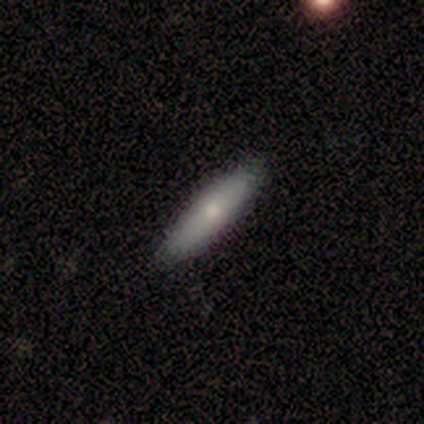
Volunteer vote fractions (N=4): This is likely a smooth galaxy (75%). How rounded: likely in between (67%). Merging: clearly none (100%).